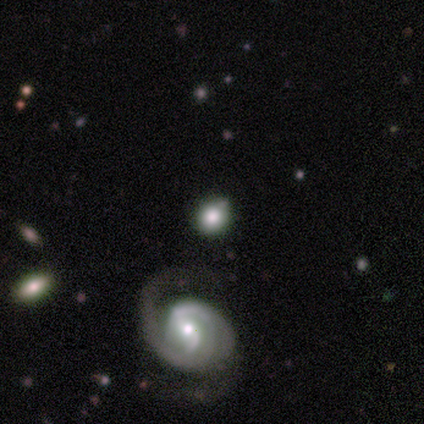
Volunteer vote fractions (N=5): smooth-or-featured: featured or disk: 60% | smooth: 20% | star or artifact: 20%
  disk-edge-on: no: 100% | yes: 0%
    bar: strong: 67% | no: 33% | weak: 0%
    has-spiral-arms: yes: 100% | no: 0%
      spiral-winding: tight: 67% | loose: 33% | medium: 0%
      spiral-arm-count: 1: 33% (tied) | 2: 33% (tied) | 4: 33% (tied) | 3: 0% | more than 4: 0% | can't tell: 0%
    bulge-size: moderate: 100% | dominant: 0% | large: 0% | small: 0% | none: 0%
  merging: none: 100% | minor disturbance: 0% | major disturbance: 0% | merger: 0%